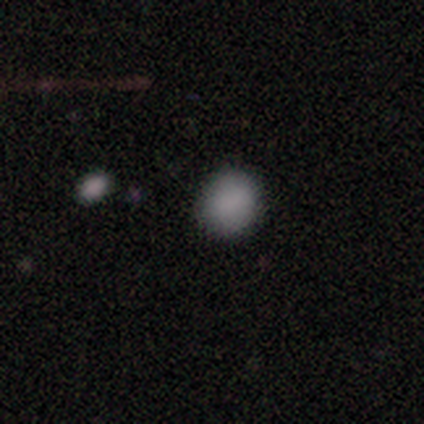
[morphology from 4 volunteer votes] Smooth or featured: smooth — 100%
How rounded: round — 100%
Merging: none — 100%